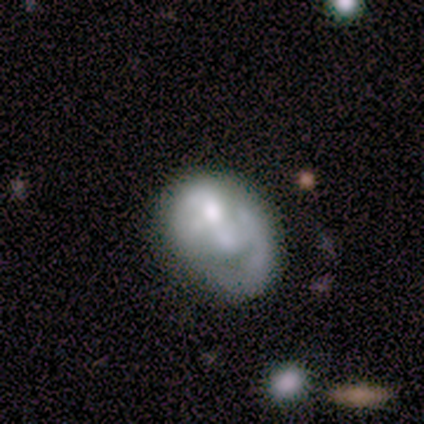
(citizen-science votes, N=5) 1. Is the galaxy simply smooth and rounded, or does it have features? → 60% featured or disk, 40% smooth, 0% star or artifact.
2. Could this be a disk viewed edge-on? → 100% no, 0% yes.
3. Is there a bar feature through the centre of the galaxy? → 67% no, 33% strong, 0% weak.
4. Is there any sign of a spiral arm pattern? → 67% no, 33% yes.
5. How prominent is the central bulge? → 33% large (tied), 33% moderate (tied), 33% none (tied), 0% dominant, 0% small.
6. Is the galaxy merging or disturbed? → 60% minor disturbance, 20% none, 20% major disturbance, 0% merger.